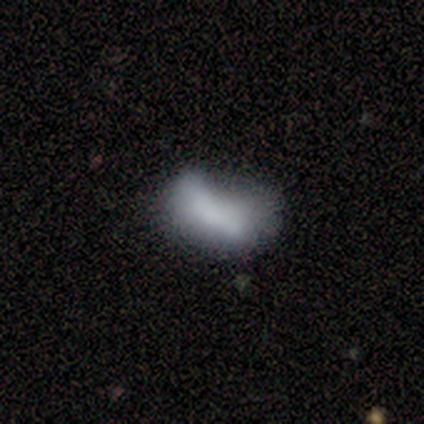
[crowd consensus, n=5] This appears to be a smooth galaxy with no disk features (100%) that is in between round and cigar-shaped (100%). Merging: minor disturbance (40%).